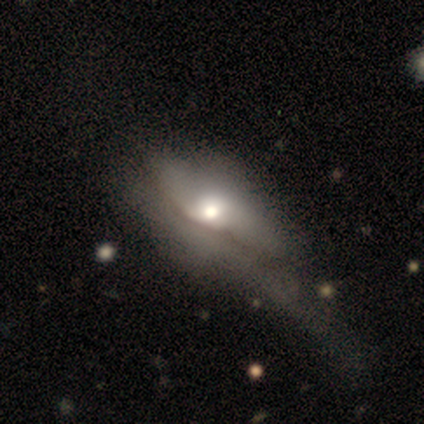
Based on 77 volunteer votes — This is possibly a featured or disk galaxy (52%). It is likely not viewed edge-on (75%). Bar: clearly no (90%). Spiral arm pattern: likely no (77%). Central bulge: possibly moderate (57%). Merging: possibly major disturbance (46%).